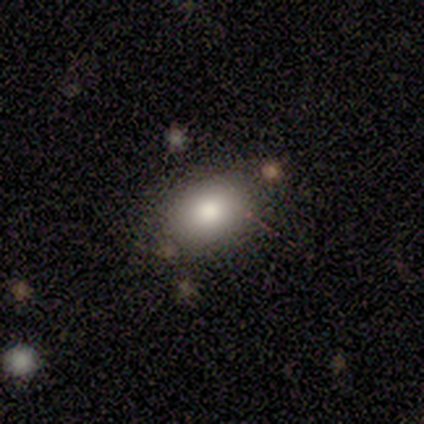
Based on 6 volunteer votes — smooth_or_featured: smooth (p=1.00)
how_rounded: in between (p=0.83) [alt: round p=0.17]
merging: none (p=1.00)